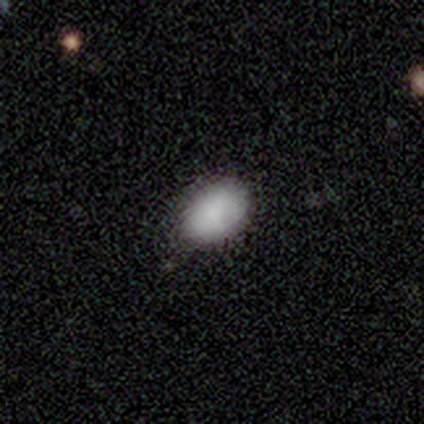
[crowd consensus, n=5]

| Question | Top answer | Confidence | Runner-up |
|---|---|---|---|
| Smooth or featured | smooth | 100% | — |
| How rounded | in between | 80% | round (20%) |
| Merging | none | 60% | minor disturbance (40%) |